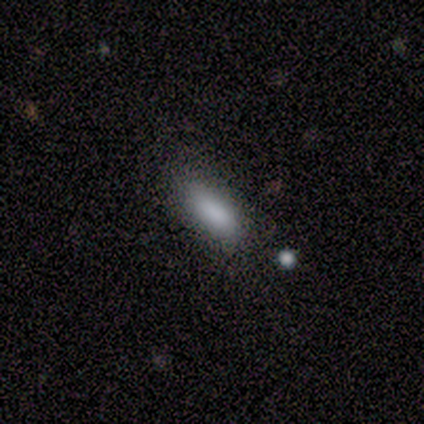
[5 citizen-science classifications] This is clearly a smooth galaxy (100%). How rounded: likely in between (60%). Merging: clearly none (80%).